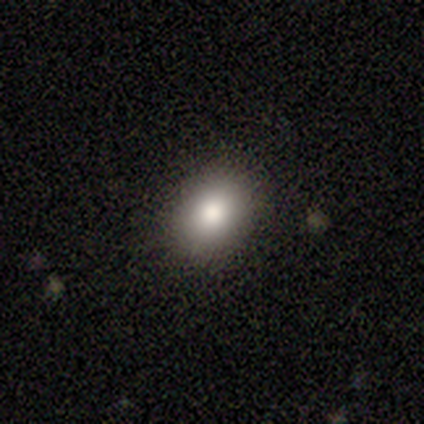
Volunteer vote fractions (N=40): Smooth or featured? smooth (82%)
How rounded? in between (73%)
Merging? none (89%)